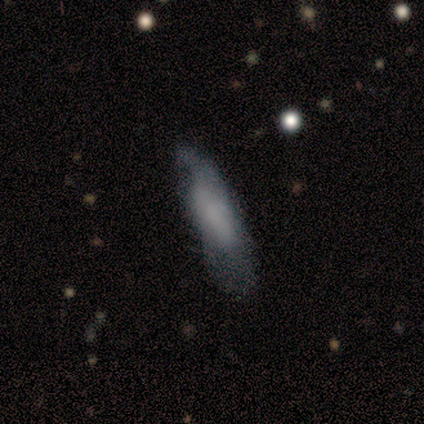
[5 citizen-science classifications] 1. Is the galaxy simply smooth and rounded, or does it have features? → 60% smooth, 20% featured or disk, 20% star or artifact.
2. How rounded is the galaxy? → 100% in between, 0% round, 0% cigar-shaped.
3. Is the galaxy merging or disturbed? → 50% none (tied), 50% minor disturbance (tied), 0% major disturbance, 0% merger.